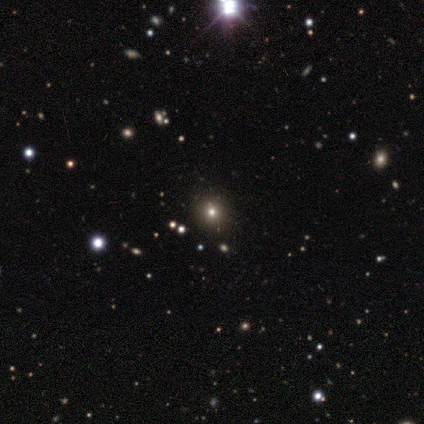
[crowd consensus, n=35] smooth-or-featured: star or artifact: 51% | smooth: 40% | featured or disk: 9%